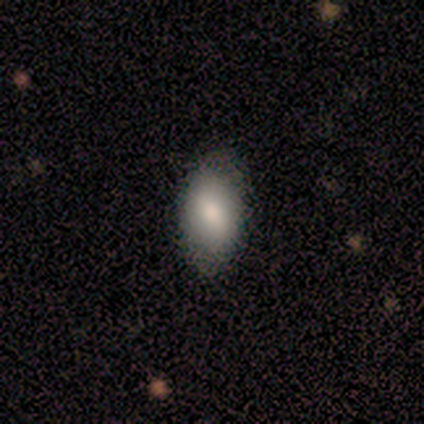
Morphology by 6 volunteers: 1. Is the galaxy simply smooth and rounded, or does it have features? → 100% smooth, 0% featured or disk, 0% star or artifact.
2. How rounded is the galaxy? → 100% in between, 0% round, 0% cigar-shaped.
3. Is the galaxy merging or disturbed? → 83% none, 17% minor disturbance, 0% major disturbance, 0% merger.